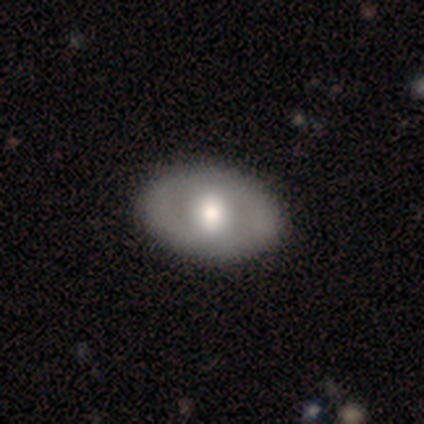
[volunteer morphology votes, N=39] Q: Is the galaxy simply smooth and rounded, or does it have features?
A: featured or disk — 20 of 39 (51%).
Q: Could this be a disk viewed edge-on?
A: no — 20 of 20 (100%).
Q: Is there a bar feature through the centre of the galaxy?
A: no — 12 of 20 (60%).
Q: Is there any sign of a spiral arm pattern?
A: no — 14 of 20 (70%).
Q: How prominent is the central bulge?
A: large — 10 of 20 (50%).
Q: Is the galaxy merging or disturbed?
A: none — 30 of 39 (77%).